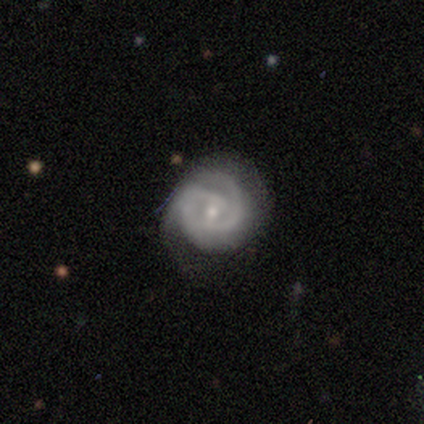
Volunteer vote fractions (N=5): A featured or disk galaxy (100%) with a weak bar (40%, tied with no), 2 (60%) medium (60%) spiral arms (100%) and a small central bulge (80%). Merging: none (100%).